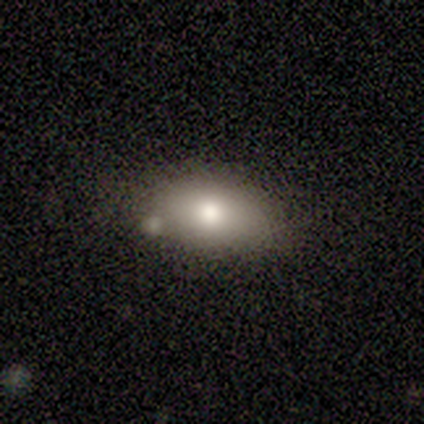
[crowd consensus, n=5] A smooth galaxy with no disk features (100%) that is in between round and cigar-shaped (100%).

Vote fractions:
- Smooth or featured? smooth: 100% / featured or disk: 0% / star or artifact: 0%
- How rounded? in between: 100% / round: 0% / cigar-shaped: 0%
- Merging? none: 100% / minor disturbance: 0% / major disturbance: 0% / merger: 0%